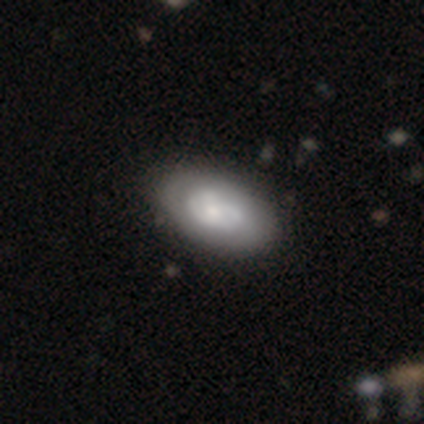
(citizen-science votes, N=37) Morphology: type=featured or disk (54%); edge-on=no (95%); bar=no (84%); spiral arms=yes (58%); winding=tight (55%); arm count=can't tell (36%); bulge=small (58%); merging=none (43%).